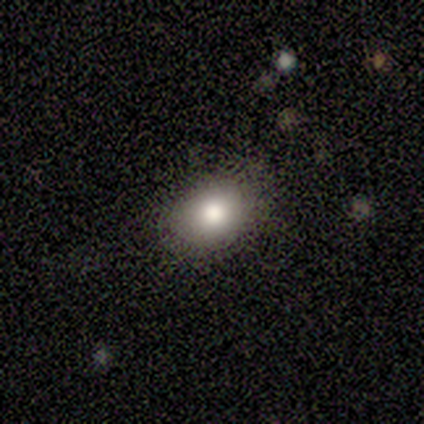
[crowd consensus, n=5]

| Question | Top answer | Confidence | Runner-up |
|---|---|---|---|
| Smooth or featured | smooth | 80% | star or artifact (20%) |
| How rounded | round | 75% | in between (25%) |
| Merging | none | 100% | — |